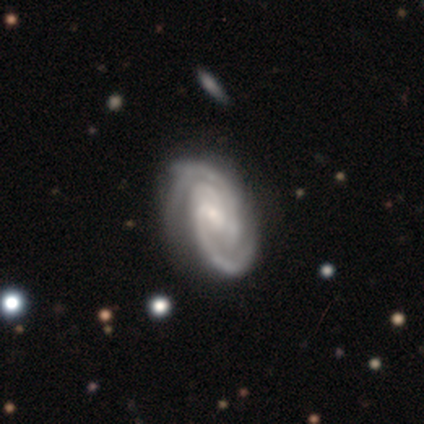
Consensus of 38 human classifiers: smooth-or-featured: featured or disk: 95% | smooth: 5% | star or artifact: 0%
  disk-edge-on: no: 97% | yes: 3%
    bar: weak: 51% | no: 34% | strong: 14%
    has-spiral-arms: yes: 100% | no: 0%
      spiral-winding: tight: 69% | medium: 29% | loose: 3%
      spiral-arm-count: 2: 54% | 3: 31% | can't tell: 9% | 1: 3% | 4: 3% | more than 4: 0%
    bulge-size: small: 66% | moderate: 23% | none: 9% | large: 3% | dominant: 0%
  merging: none: 42% | minor disturbance: 16% | major disturbance: 5% | merger: 3%